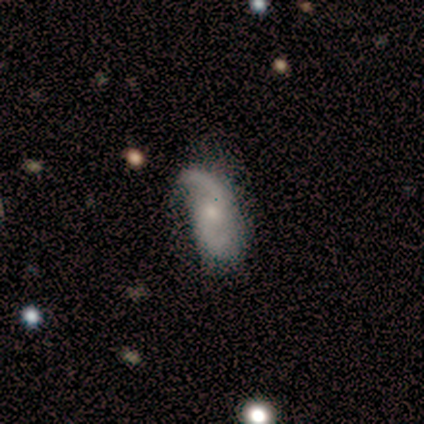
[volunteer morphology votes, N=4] This appears to be a featured or disk galaxy (100%) with no bar (75%), 2 (100%) loose (75%) spiral arms (100%) and a small central bulge (50%). Merging: none (100%).